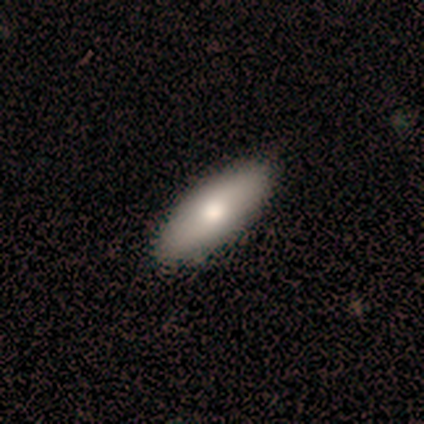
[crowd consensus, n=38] smooth_or_featured: smooth (p=0.79) [alt: featured or disk p=0.21]
how_rounded: in between (p=0.77) [alt: cigar-shaped p=0.23]
merging: none (p=0.92) [alt: minor disturbance p=0.05]